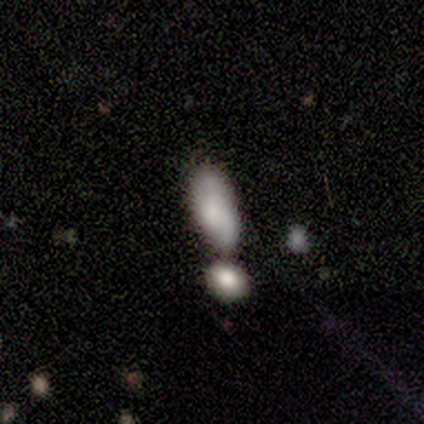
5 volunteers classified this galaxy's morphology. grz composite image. It shows a smooth galaxy with no disk features (100%) that is in between round and cigar-shaped (80%). Merging: minor disturbance (60%).